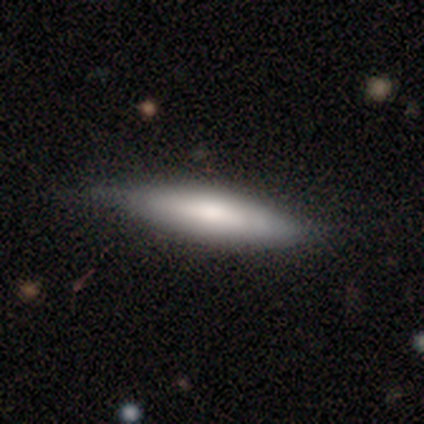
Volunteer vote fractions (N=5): Smooth or featured: smooth — 100%
How rounded: cigar-shaped — 60% (in between — 40%)
Merging: none — 80% (minor disturbance — 20%)